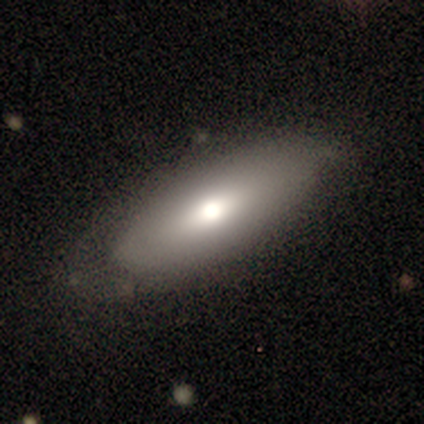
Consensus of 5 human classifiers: This appears to be a smooth galaxy with no disk features (40%, tied with featured or disk) that is in between round and cigar-shaped (50%, tied with cigar-shaped). Merging: none (75%).